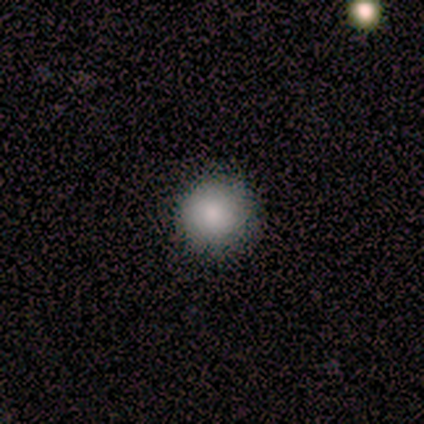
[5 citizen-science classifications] Smooth or featured? smooth (80%)
How rounded? round (100%)
Merging? none (75%)